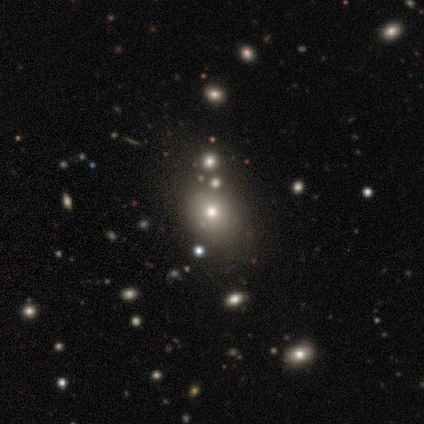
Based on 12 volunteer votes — Smooth or featured? smooth (58%)
How rounded? round (57%)
Merging? none (62%)